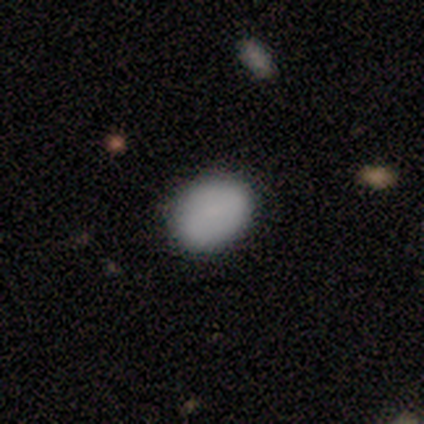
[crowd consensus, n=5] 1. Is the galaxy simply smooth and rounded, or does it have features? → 100% smooth, 0% featured or disk, 0% star or artifact.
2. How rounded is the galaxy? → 100% in between, 0% round, 0% cigar-shaped.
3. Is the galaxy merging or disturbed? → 80% none, 20% minor disturbance, 0% major disturbance, 0% merger.